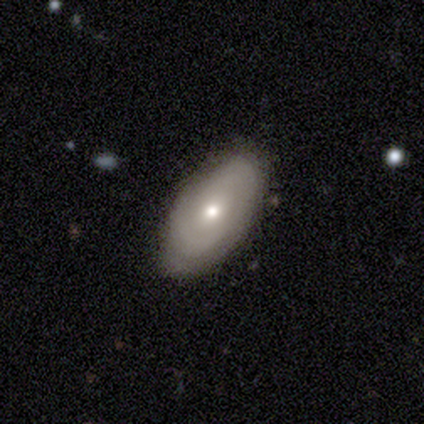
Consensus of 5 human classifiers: Smooth or featured?
  - smooth: 80% *
  - featured or disk: 20%
  - star or artifact: 0%
How rounded?
  - in between: 100% *
  - round: 0%
  - cigar-shaped: 0%
Merging?
  - none: 100% *
  - minor disturbance: 0%
  - major disturbance: 0%
  - merger: 0%